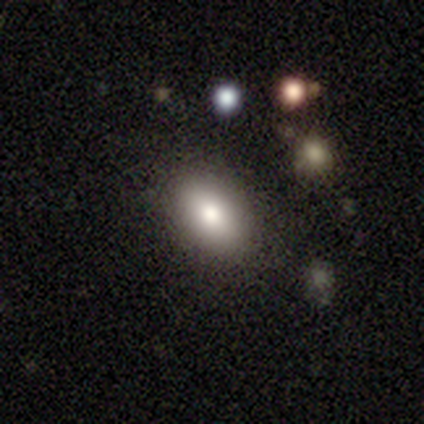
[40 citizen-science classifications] smooth-or-featured: smooth: 72% | featured or disk: 15% | star or artifact: 12%
  how-rounded: in between: 93% | round: 7% | cigar-shaped: 0%
  merging: none: 89% | minor disturbance: 6% | merger: 6% | major disturbance: 0%